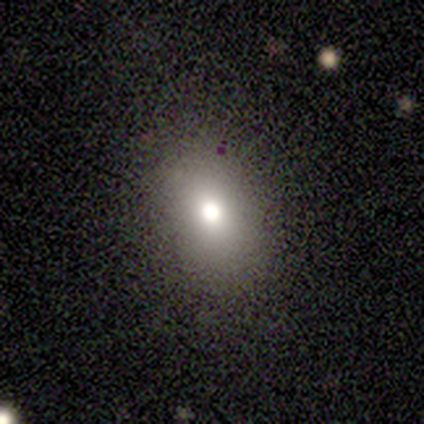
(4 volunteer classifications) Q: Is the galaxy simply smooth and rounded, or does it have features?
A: smooth — 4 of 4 (100%).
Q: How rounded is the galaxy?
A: round — 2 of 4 (50%, tied with in between).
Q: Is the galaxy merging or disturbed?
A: none — 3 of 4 (75%).